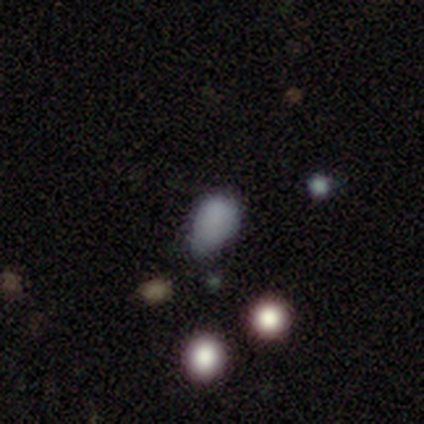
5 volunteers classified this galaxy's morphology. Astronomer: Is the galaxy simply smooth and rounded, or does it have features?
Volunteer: smooth — 80%.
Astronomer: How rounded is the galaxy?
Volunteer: in between — 100%.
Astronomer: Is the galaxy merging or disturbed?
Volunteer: minor disturbance — 75%.